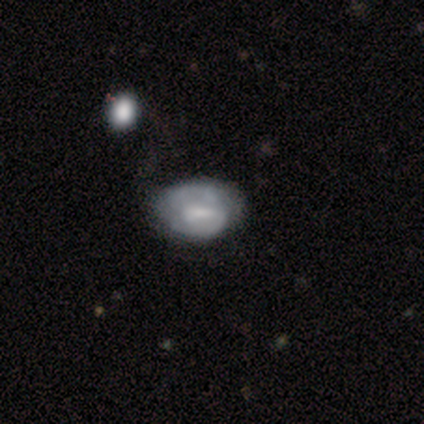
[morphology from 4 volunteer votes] A featured or disk galaxy (75%) with no bar (67%), no spiral arms (67%) and a large central bulge (33%, tied with small and none).

Vote fractions:
- Smooth or featured? featured or disk: 75% / smooth: 25% / star or artifact: 0%
- Edge-on disk? no: 100% / yes: 0%
- Bar? no: 67% / weak: 33% / strong: 0%
- Spiral arms? no: 67% / yes: 33%
- Bulge size? large: 33% (tied) / small: 33% (tied) / none: 33% (tied) / dominant: 0% / moderate: 0%
- Merging? none: 50% (tied) / major disturbance: 50% (tied) / minor disturbance: 0% / merger: 0%